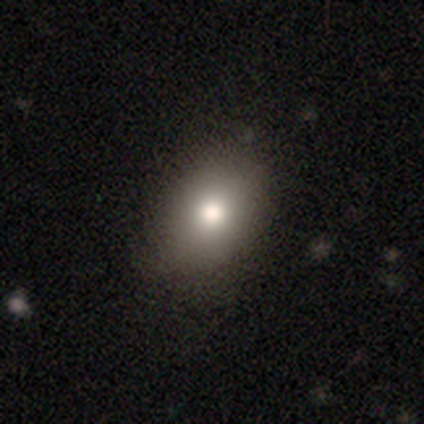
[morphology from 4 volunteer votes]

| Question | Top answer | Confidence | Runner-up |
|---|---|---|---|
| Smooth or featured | smooth | 100% | — |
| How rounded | in between | 75% | round (25%) |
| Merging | none | 100% | — |